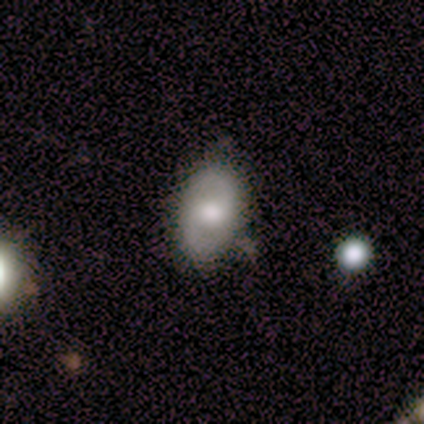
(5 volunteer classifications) featured or disk 60%, smooth 40%, star or artifact 0%. Down the decision tree: edge-on disk — no (100%); bar — weak (100%); spiral arms — yes (67%); spiral arm count — 2 (100%); spiral winding — medium (50%, tied with loose); bulge size — moderate (100%); merging — minor disturbance (60%).